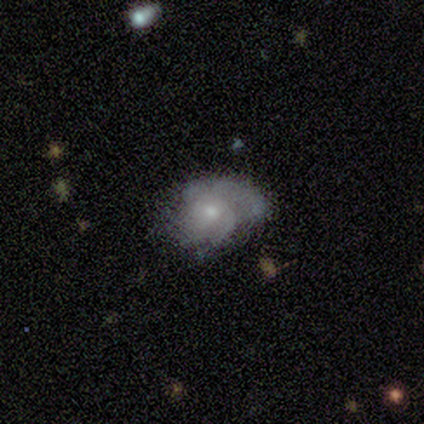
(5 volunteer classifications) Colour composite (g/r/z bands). It shows a featured or disk galaxy (80%) with no bar (75%), 2 (25%, tied with 3, 4 and can't tell) medium (75%) spiral arms (100%) and a small central bulge (50%). Merging: none (80%).